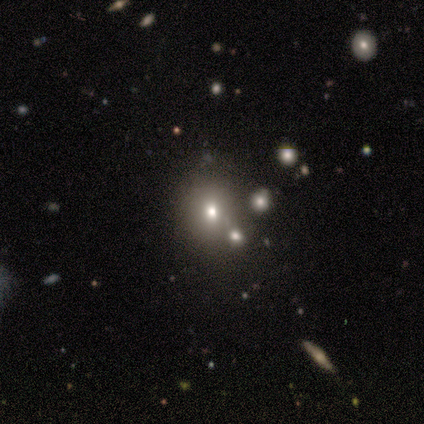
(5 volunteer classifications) smooth 40% (tied), featured or disk 40% (tied), star or artifact 20%. Down the decision tree: how rounded — round (100%); merging — merger (50%).